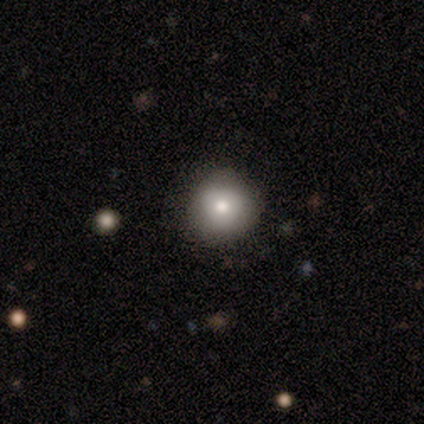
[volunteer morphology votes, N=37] This appears to be a smooth galaxy with no disk features (73%) that is round (89%). Merging: none (85%).